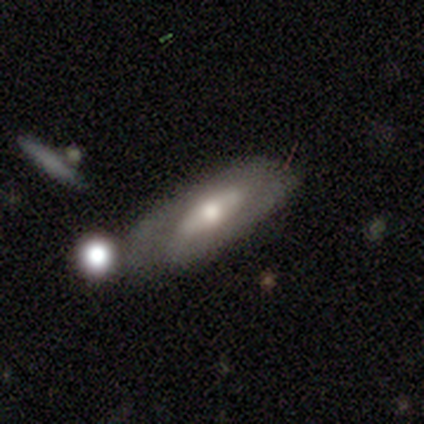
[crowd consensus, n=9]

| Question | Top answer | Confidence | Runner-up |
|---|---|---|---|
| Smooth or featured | featured or disk | 56% | smooth (44%) |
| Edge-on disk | no | 60% | yes (40%) |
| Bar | strong | 67% | no (33%) |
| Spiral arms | yes | 100% | — |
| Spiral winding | medium | 67% | loose (33%) |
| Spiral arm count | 2 | 67% | can't tell (33%) |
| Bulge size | moderate | 100% | — |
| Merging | none | 56% | merger (22%) |